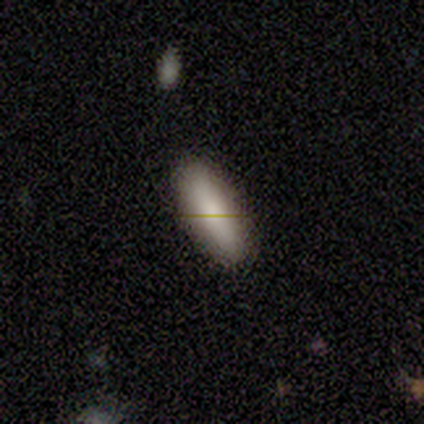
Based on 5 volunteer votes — Smooth or featured? 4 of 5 (80%) said smooth. How rounded? 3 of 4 (75%) said in between. Merging? 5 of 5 (100%) said none.